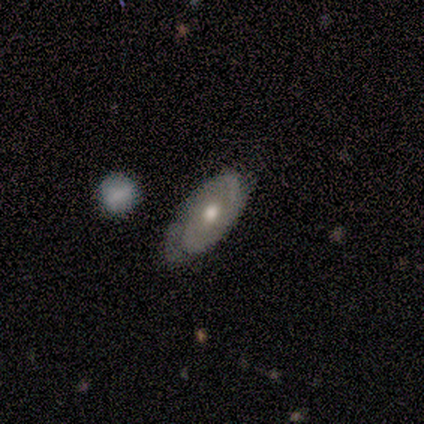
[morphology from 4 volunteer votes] Smooth or featured?
  - smooth: 50% * (tied)
  - featured or disk: 50% * (tied)
  - star or artifact: 0%
How rounded?
  - round: 50% * (tied)
  - in between: 50% * (tied)
  - cigar-shaped: 0%
Merging?
  - none: 75% *
  - minor disturbance: 25%
  - major disturbance: 0%
  - merger: 0%